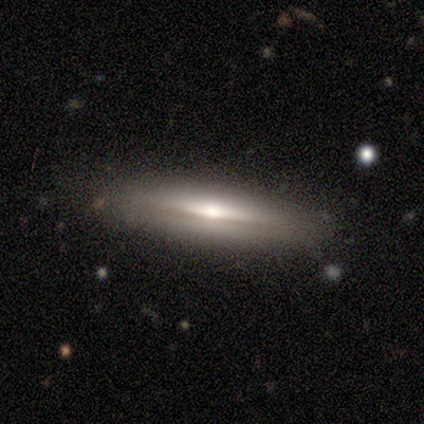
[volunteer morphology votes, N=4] Volunteers were most divided on "smooth or featured": smooth: 75%, featured or disk: 25%, star or artifact: 0%. More confident: how rounded — cigar-shaped (100%); merging — none (100%).